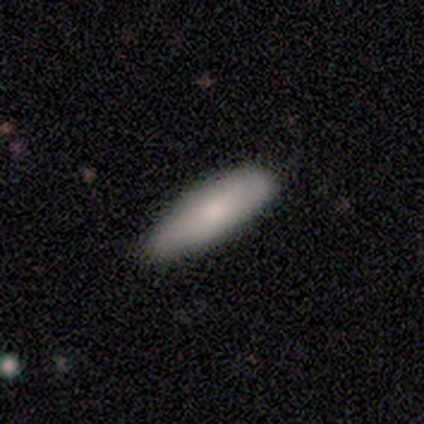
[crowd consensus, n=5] Smooth or featured: smooth — 80% (star or artifact — 20%)
How rounded: in between — 50% (tied with cigar-shaped — 50%)
Merging: none — 100%